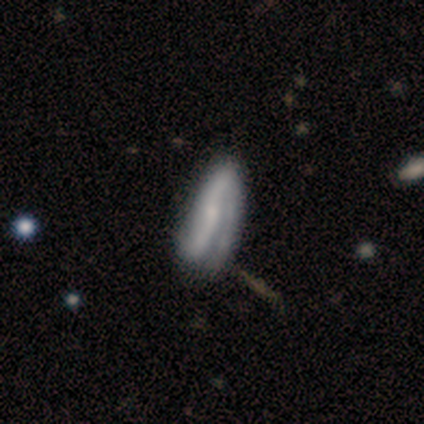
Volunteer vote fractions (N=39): A featured or disk galaxy (82%) with a strong bar (46%), 2 (74%) medium (43%) spiral arms (96%) and a small central bulge (79%).

Vote fractions:
- Smooth or featured? featured or disk: 82% / smooth: 18% / star or artifact: 0%
- Edge-on disk? no: 75% / yes: 25%
- Bar? strong: 46% / no: 38% / weak: 17%
- Spiral arms? yes: 96% / no: 4%
- Spiral winding? medium: 43% / loose: 35% / tight: 22%
- Spiral arm count? 2: 74% / 1: 17% / can't tell: 9% / 3: 0% / 4: 0% / more than 4: 0%
- Bulge size? small: 79% / none: 17% / dominant: 4% / large: 0% / moderate: 0%
- Merging? none: 46% / major disturbance: 26% / minor disturbance: 15% / merger: 5%